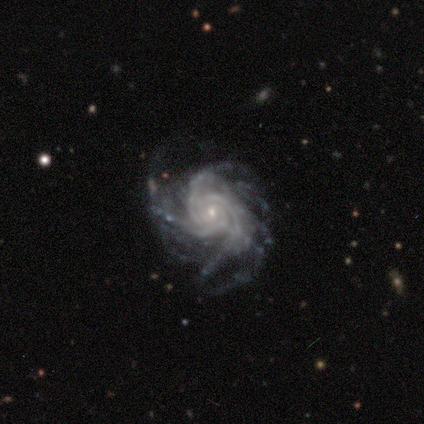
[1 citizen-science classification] A featured or disk galaxy (100%) viewed edge-on (100%) with a rounded central bulge (100%). Merging: none (100%).